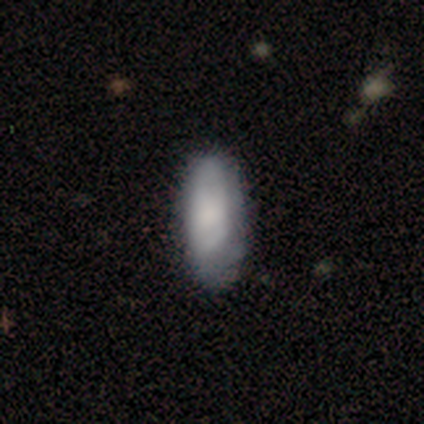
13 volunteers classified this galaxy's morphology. This is clearly a smooth galaxy (85%). How rounded: clearly in between (100%). Merging: likely none (69%).